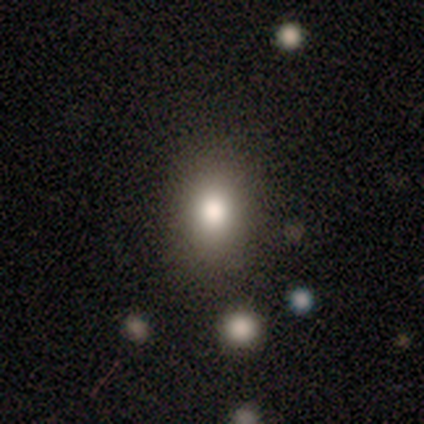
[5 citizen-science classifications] Volunteers were most divided on "merging": none: 80%, major disturbance: 20%, minor disturbance: 0%, merger: 0%. More confident: smooth or featured — smooth (100%); how rounded — in between (100%).